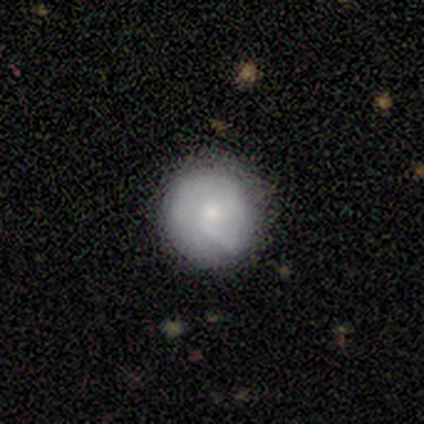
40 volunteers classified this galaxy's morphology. This appears to be a smooth galaxy with no disk features (68%) that is round (96%). Merging: none (82%).